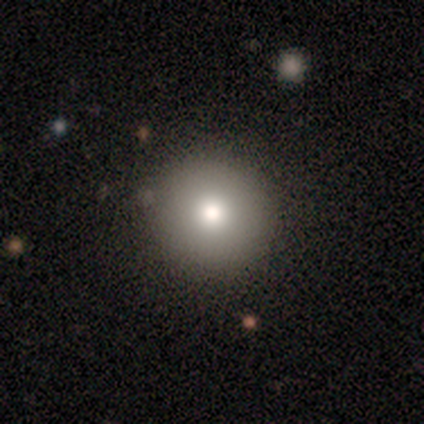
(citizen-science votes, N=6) Smooth or featured? smooth (83%)
How rounded? round (100%)
Merging? none (100%)